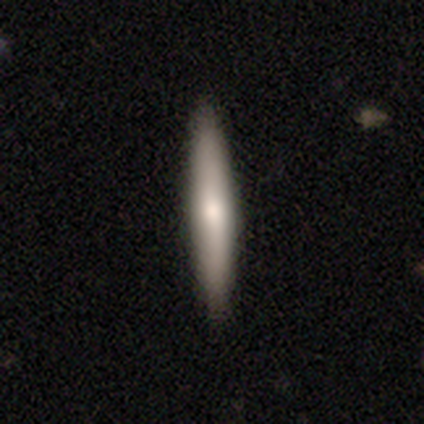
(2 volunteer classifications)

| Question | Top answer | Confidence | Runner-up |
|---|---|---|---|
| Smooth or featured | smooth | 100% | — |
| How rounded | cigar-shaped | 100% | — |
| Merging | none | 100% | — |